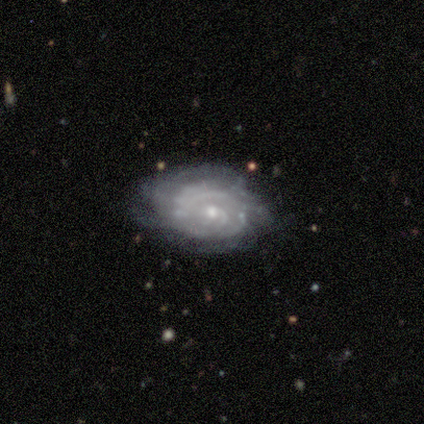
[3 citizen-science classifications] Smooth or featured: featured or disk — 100%
Edge-on disk: no — 100%
Bar: no — 100%
Spiral arms: yes — 100%
Spiral winding: tight — 100%
Spiral arm count: can't tell — 67% (4 — 33%)
Bulge size: small — 67% (moderate — 33%)
Merging: none — 67% (minor disturbance — 33%)